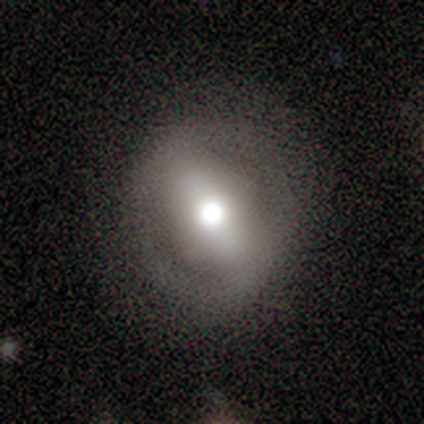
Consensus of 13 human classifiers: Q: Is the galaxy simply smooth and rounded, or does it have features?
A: featured or disk — 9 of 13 (69%).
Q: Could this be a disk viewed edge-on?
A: no — 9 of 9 (100%).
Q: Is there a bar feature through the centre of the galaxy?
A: no — 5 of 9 (56%).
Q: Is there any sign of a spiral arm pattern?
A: no — 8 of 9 (89%).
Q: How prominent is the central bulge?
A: moderate — 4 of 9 (44%).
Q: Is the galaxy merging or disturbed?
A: none — 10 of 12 (83%).